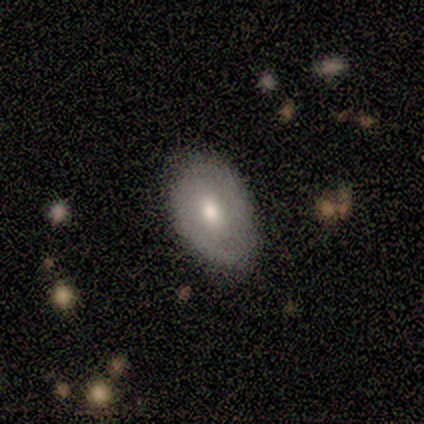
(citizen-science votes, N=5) smooth_or_featured: smooth (p=0.60) [alt: featured or disk p=0.40]
how_rounded: in between (p=1.00)
merging: none (p=1.00)